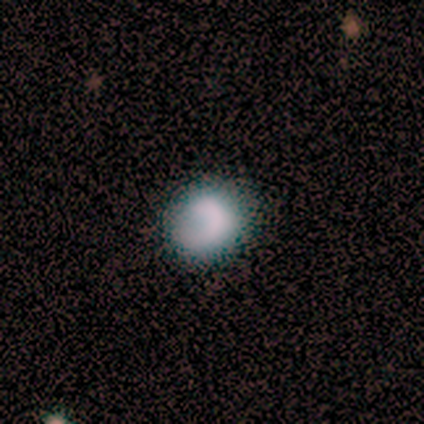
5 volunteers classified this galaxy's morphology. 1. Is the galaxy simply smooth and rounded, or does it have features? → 60% smooth, 40% featured or disk, 0% star or artifact.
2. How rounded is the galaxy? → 67% round, 33% in between, 0% cigar-shaped.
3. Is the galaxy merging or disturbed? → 60% none, 40% minor disturbance, 0% major disturbance, 0% merger.